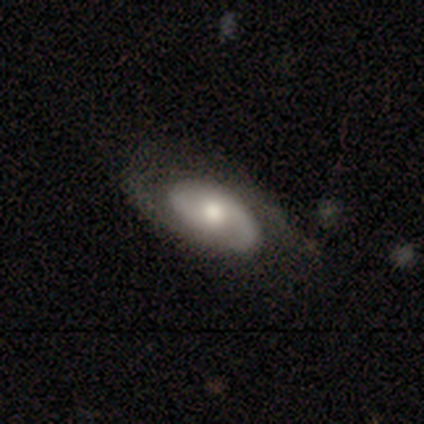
smooth-or-featured: featured or disk: 70% | smooth: 18% | star or artifact: 11%
  disk-edge-on: no: 90% | yes: 10%
    bar: no: 57% | weak: 39% | strong: 4%
    has-spiral-arms: yes: 93% | no: 7%
      spiral-winding: tight: 42% | medium: 31% | loose: 27%
      spiral-arm-count: 2: 62% | 1: 23% | can't tell: 12% | 3: 4% | 4: 0% | more than 4: 0%
    bulge-size: moderate: 54% | small: 29% | large: 11% | none: 7% | dominant: 0%
  merging: none: 54% | minor disturbance: 23% | major disturbance: 23% | merger: 0%